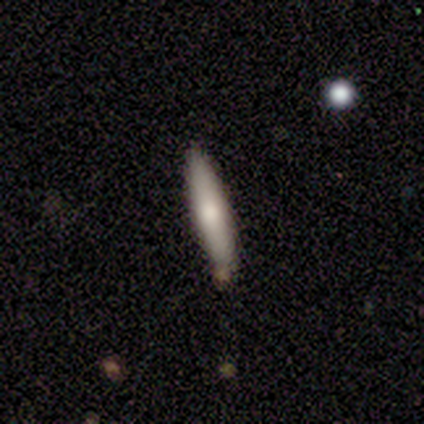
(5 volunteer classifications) smooth_or_featured: smooth (p=0.40) [tied with: featured or disk p=0.40]
how_rounded: cigar-shaped (p=1.00)
merging: none (p=0.50) [alt: minor disturbance p=0.25]